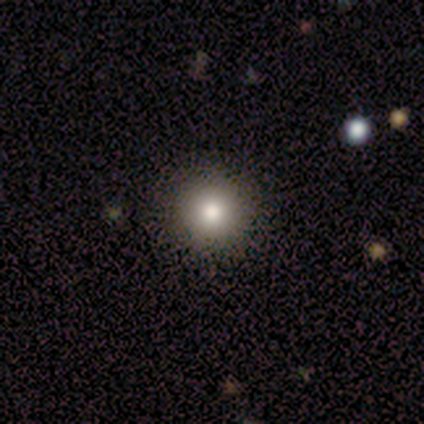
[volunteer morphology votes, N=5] Q: Smooth or featured?
A: smooth (80%); runner-up: star or artifact (20%)
Q: How rounded?
A: round (100%)
Q: Merging?
A: none (100%)